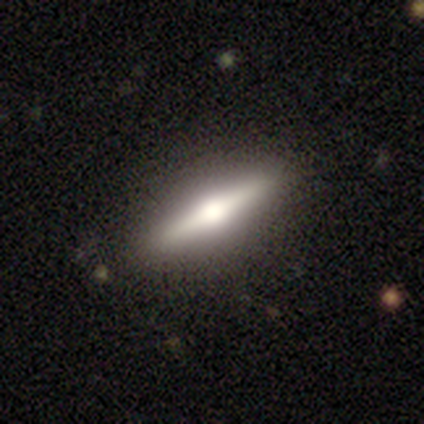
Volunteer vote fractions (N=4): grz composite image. It shows a smooth galaxy with no disk features (50%, tied with featured or disk) that is cigar-shaped (100%). Merging: none (100%).